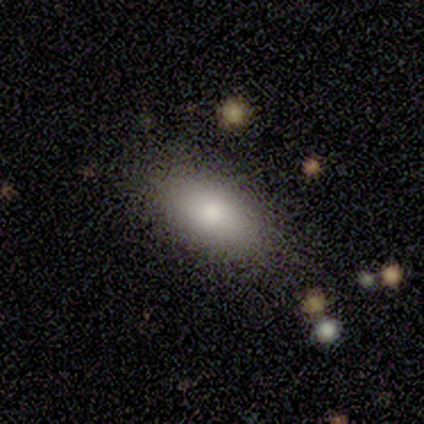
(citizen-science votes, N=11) Volunteers were most divided on "smooth or featured": smooth: 73%, featured or disk: 27%, star or artifact: 0%. More confident: how rounded — in between (100%); merging — none (73%).